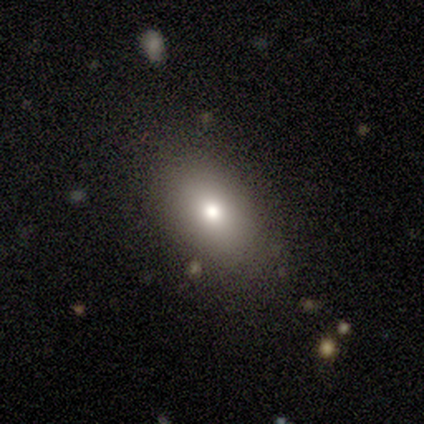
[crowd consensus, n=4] Overall: smooth (75%). How rounded: in between (100%). Merging: none (100%).